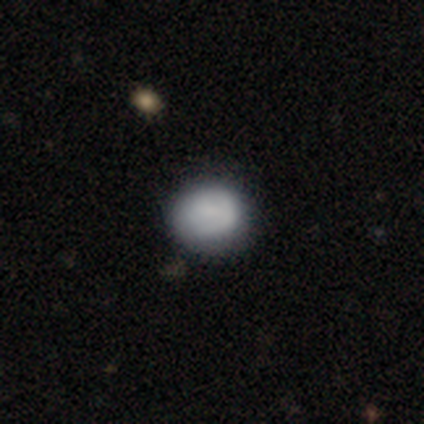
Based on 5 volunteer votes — smooth 100%, featured or disk 0%, star or artifact 0%. Down the decision tree: how rounded — round (100%); merging — none (60%).